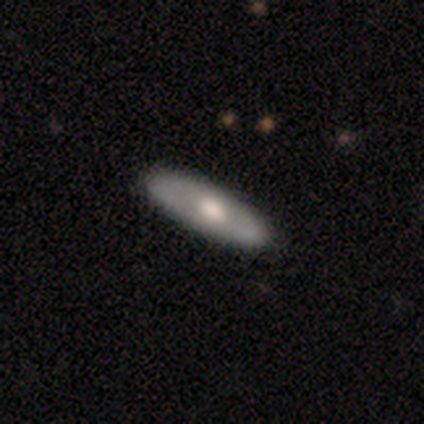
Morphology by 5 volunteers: A featured or disk galaxy (60%) with no bar (67%), no spiral arms (67%) and a large central bulge (67%). Merging: none (75%).